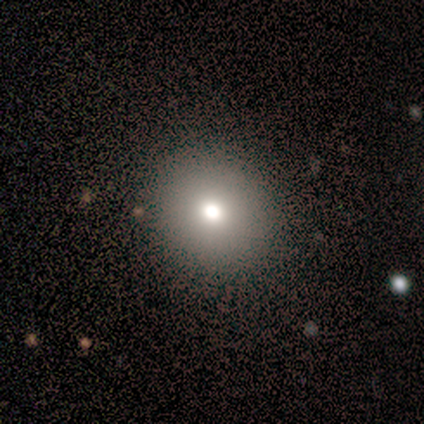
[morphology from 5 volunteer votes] Smooth or featured? 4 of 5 (80%) said smooth. How rounded? 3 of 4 (75%) said round. Merging? 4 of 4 (100%) said none.